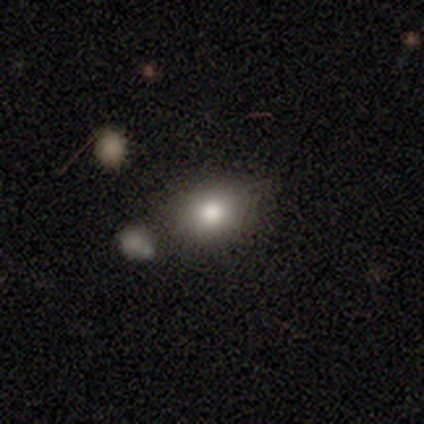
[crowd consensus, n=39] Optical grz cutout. It shows a smooth galaxy with no disk features (62%) that is in between round and cigar-shaped (83%). Merging: none (76%).